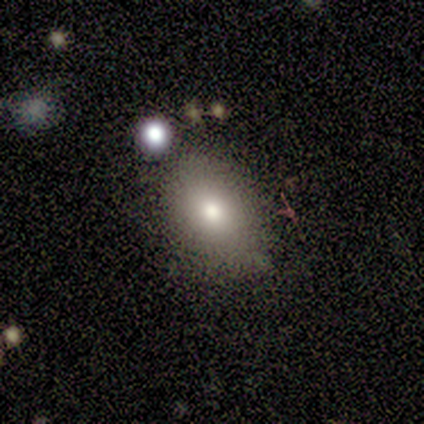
smooth_or_featured: smooth (p=0.75) [alt: featured or disk p=0.25]
how_rounded: in between (p=0.67) [alt: round p=0.33]
merging: none (p=0.50) [alt: minor disturbance p=0.25]